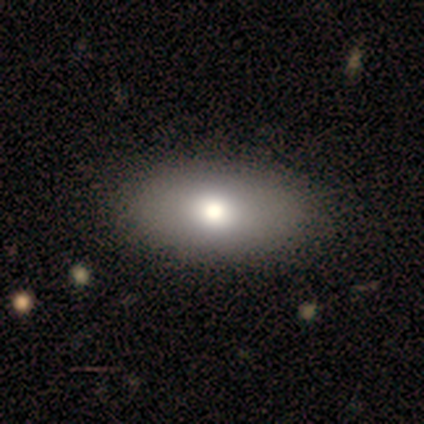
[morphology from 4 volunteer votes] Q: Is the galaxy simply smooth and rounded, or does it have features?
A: smooth — 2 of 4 (50%).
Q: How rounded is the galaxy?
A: in between — 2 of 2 (100%).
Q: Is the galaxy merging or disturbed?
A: none — 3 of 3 (100%).